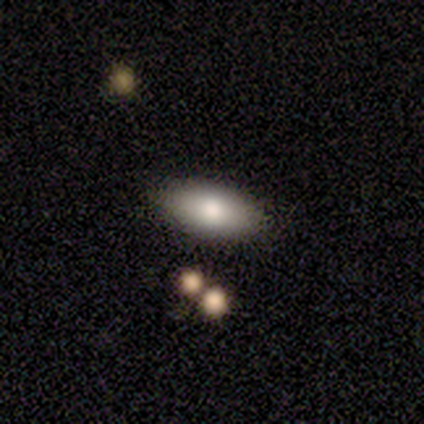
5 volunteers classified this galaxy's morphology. Smooth or featured? 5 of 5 (100%) said smooth. How rounded? 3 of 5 (60%) said in between. Merging? 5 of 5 (100%) said none.